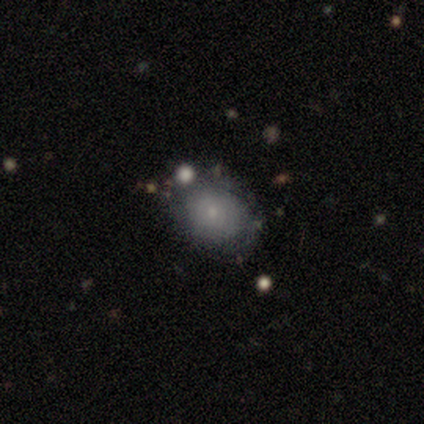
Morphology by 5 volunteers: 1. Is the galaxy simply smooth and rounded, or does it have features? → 80% smooth, 20% featured or disk, 0% star or artifact.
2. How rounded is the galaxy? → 50% round (tied), 50% in between (tied), 0% cigar-shaped.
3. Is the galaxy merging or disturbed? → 80% none, 20% major disturbance, 0% minor disturbance, 0% merger.